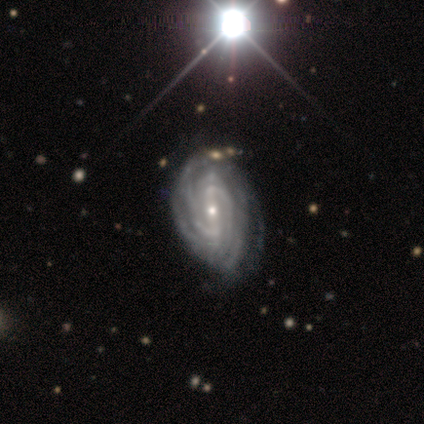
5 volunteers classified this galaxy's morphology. Smooth or featured?
  - featured or disk: 100% *
  - smooth: 0%
  - star or artifact: 0%
Edge-on disk?
  - no: 100% *
  - yes: 0%
Bar?
  - strong: 40% * (tied)
  - weak: 40% * (tied)
  - no: 20%
Spiral arms?
  - yes: 100% *
  - no: 0%
Spiral winding?
  - tight: 80% *
  - medium: 20%
  - loose: 0%
Spiral arm count?
  - more than 4: 40% * (tied)
  - can't tell: 40% * (tied)
  - 2: 20%
  - 1: 0%
  - 3: 0%
  - 4: 0%
Bulge size?
  - small: 80% *
  - moderate: 20%
  - dominant: 0%
  - large: 0%
  - none: 0%
Merging?
  - none: 80% *
  - minor disturbance: 20%
  - major disturbance: 0%
  - merger: 0%